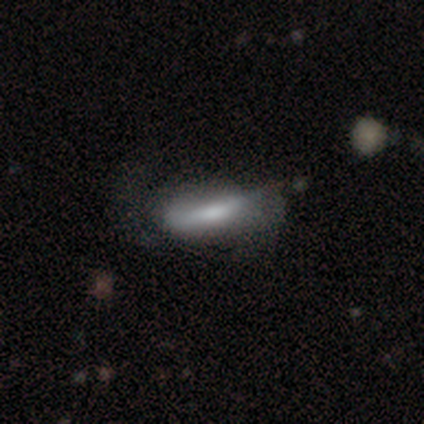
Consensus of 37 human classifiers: A smooth galaxy with no disk features (70%) that is in between round and cigar-shaped (73%). Merging: none (40%).